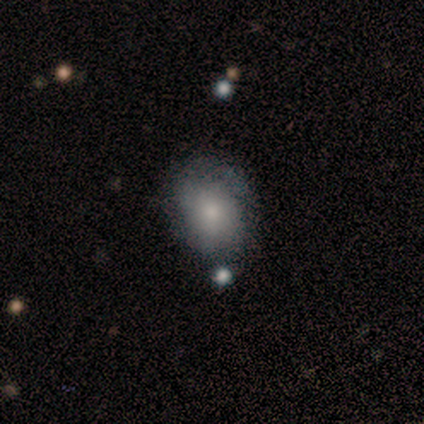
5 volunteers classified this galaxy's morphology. Smooth or featured: smooth — 80% (star or artifact — 20%)
How rounded: round — 50% (tied with in between — 50%)
Merging: none — 50% (minor disturbance — 25%)